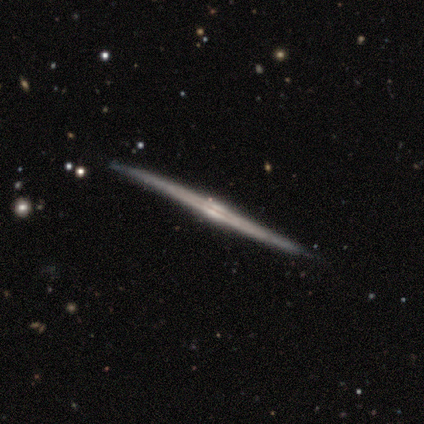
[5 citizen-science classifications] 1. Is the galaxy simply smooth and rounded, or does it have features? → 100% featured or disk, 0% smooth, 0% star or artifact.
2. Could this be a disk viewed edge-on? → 100% yes, 0% no.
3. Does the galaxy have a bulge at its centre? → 80% rounded, 20% boxy, 0% none.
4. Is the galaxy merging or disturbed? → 100% none, 0% minor disturbance, 0% major disturbance, 0% merger.